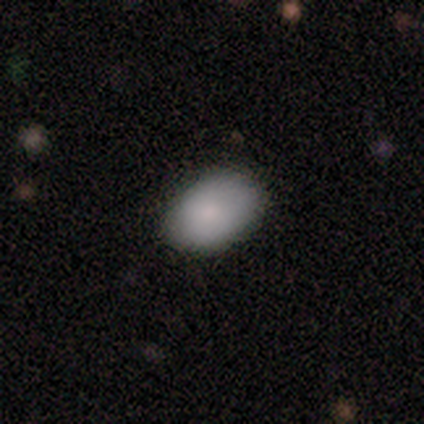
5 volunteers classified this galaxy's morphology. smooth-or-featured: smooth: 100% | featured or disk: 0% | star or artifact: 0%
  how-rounded: in between: 80% | round: 20% | cigar-shaped: 0%
  merging: none: 60% | minor disturbance: 40% | major disturbance: 0% | merger: 0%